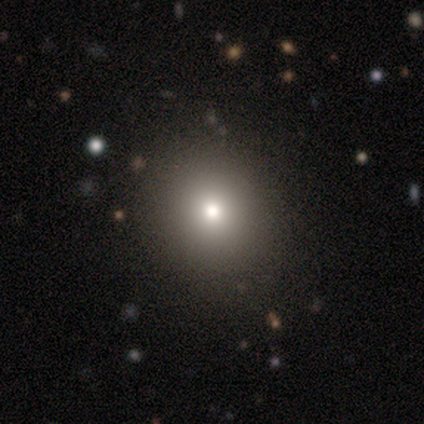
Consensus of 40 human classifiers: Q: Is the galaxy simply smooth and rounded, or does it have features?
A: smooth — 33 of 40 (82%).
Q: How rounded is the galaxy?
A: round — 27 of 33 (82%).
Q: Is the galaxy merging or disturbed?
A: none — 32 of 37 (86%).